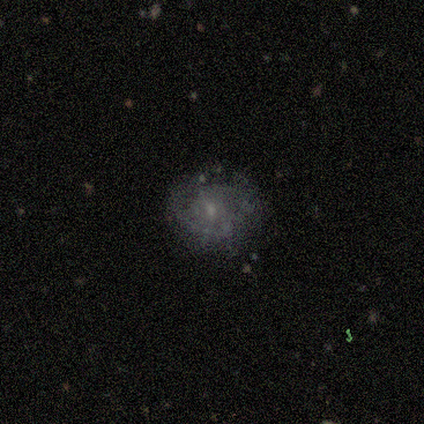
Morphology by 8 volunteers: Smooth or featured? 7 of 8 (88%) said featured or disk. Edge-on disk? 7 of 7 (100%) said no. Bar? 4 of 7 (57%) said no. Spiral arms? 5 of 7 (71%) said yes. Spiral winding? 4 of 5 (80%) said medium. Spiral arm count? 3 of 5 (60%) said 2. Bulge size? 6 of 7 (86%) said small. Merging? 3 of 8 (38%, tied with minor disturbance) said none.